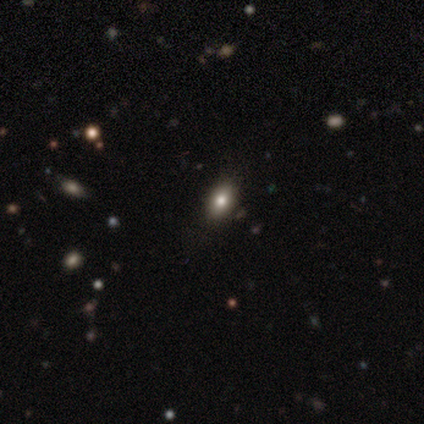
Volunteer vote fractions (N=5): smooth-or-featured: featured or disk: 60% | smooth: 40% | star or artifact: 0%
  disk-edge-on: no: 67% | yes: 33%
    bar: no: 100% | strong: 0% | weak: 0%
    has-spiral-arms: no: 100% | yes: 0%
    bulge-size: large: 100% | dominant: 0% | moderate: 0% | small: 0% | none: 0%
  merging: none: 60% | minor disturbance: 20% | merger: 20% | major disturbance: 0%